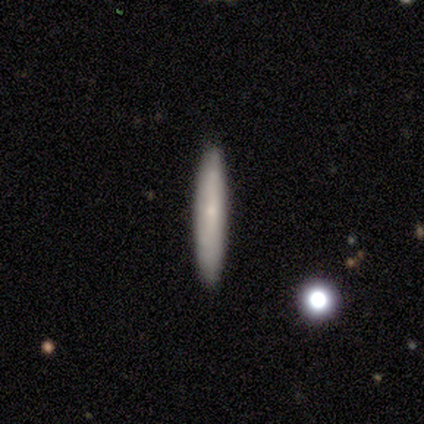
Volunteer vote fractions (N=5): A smooth galaxy with no disk features (80%) that is cigar-shaped (75%).

Vote fractions:
- Smooth or featured? smooth: 80% / featured or disk: 20% / star or artifact: 0%
- How rounded? cigar-shaped: 75% / in between: 25% / round: 0%
- Merging? none: 80% / minor disturbance: 20% / major disturbance: 0% / merger: 0%